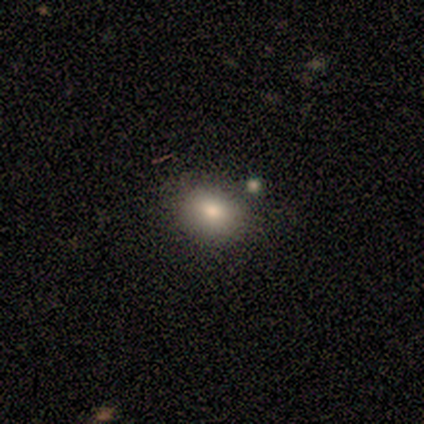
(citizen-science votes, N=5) smooth-or-featured: smooth: 100% | featured or disk: 0% | star or artifact: 0%
  how-rounded: in between: 60% | round: 40% | cigar-shaped: 0%
  merging: none: 100% | minor disturbance: 0% | major disturbance: 0% | merger: 0%